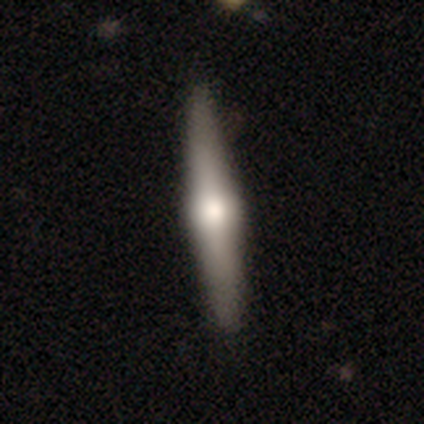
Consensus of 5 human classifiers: This is likely a featured or disk galaxy (60%). It is clearly viewed edge-on (100%). Edge-on bulge: clearly rounded (100%). Merging: clearly none (100%).